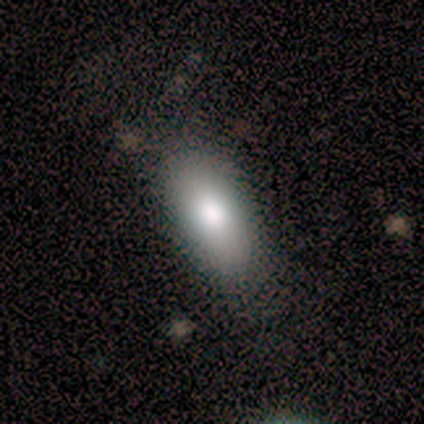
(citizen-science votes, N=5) Morphology: type=smooth (80%); roundness=in between (75%); merging=none (75%).